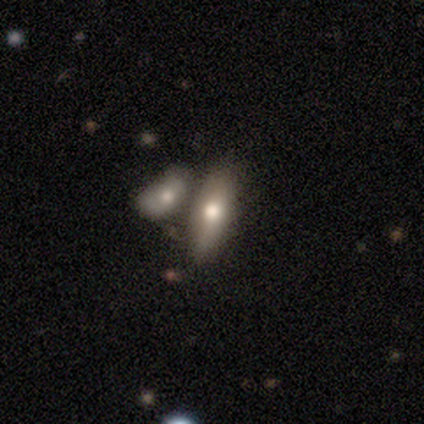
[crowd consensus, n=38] Smooth or featured? smooth (76%)
How rounded? in between (62%)
Merging? merger (51%)